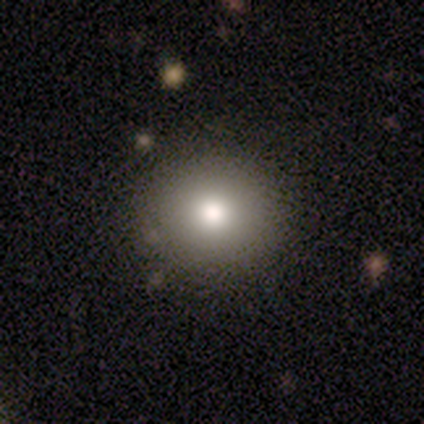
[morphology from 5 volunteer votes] This appears to be a smooth galaxy with no disk features (80%) that is round (75%). Merging: none (80%).